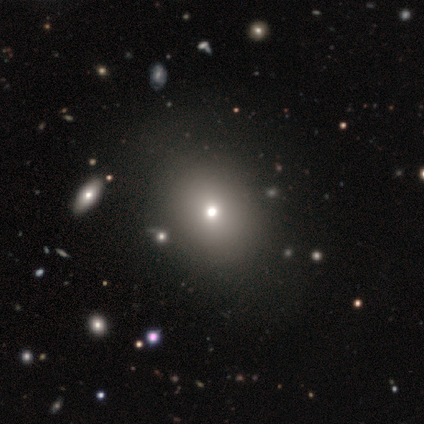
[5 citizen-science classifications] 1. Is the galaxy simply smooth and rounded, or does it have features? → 60% smooth, 20% featured or disk, 20% star or artifact.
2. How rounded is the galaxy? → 67% round, 33% in between, 0% cigar-shaped.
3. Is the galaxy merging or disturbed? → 100% none, 0% minor disturbance, 0% major disturbance, 0% merger.